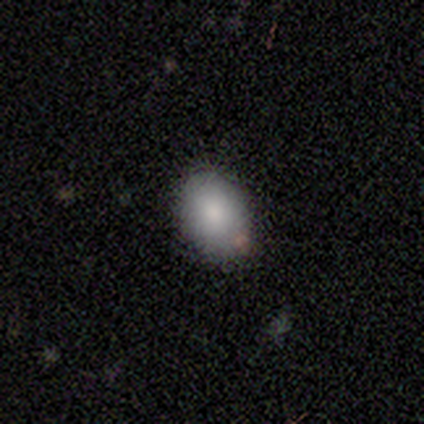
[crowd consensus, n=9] This appears to be a smooth galaxy with no disk features (100%) that is in between round and cigar-shaped (67%). Merging: none (78%).